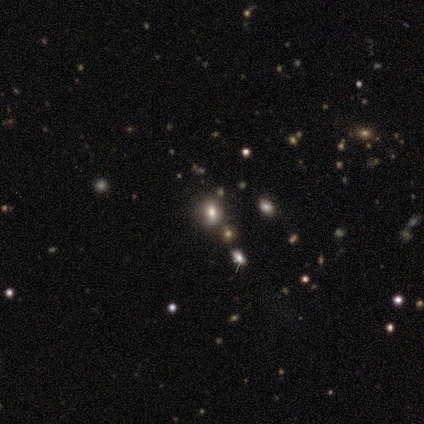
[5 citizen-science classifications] smooth_or_featured: smooth (p=0.40) [tied with: star or artifact p=0.40]
how_rounded: round (p=0.50) [tied with: in between p=0.50]
merging: none (p=0.67) [alt: minor disturbance p=0.33]